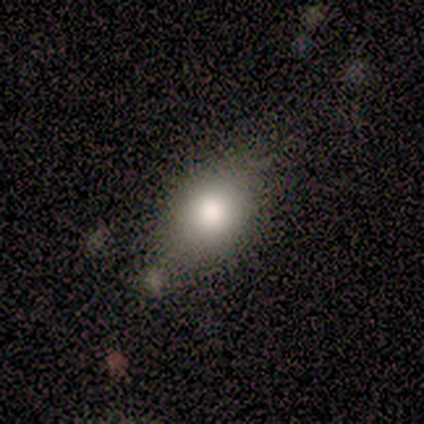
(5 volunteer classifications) smooth-or-featured: smooth: 80% | featured or disk: 20% | star or artifact: 0%
  how-rounded: in between: 50% | round: 25% | cigar-shaped: 25%
  merging: none: 80% | merger: 20% | minor disturbance: 0% | major disturbance: 0%